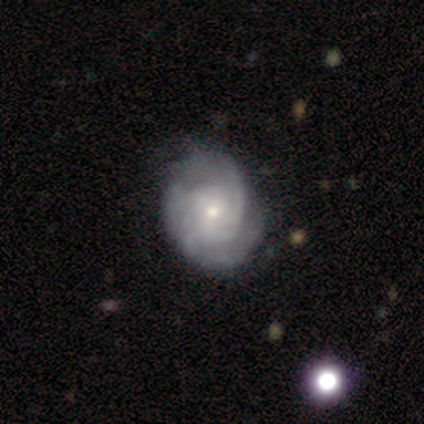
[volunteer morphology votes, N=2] This is clearly a featured or disk galaxy (100%). It is clearly not viewed edge-on (100%). Bar: clearly no (100%). Spiral arm pattern: clearly yes (100%). Spiral arm count: clearly 2 (100%). Spiral winding: clearly tight (100%). Central bulge: possibly large (50%, tied with moderate). Merging: clearly none (100%).